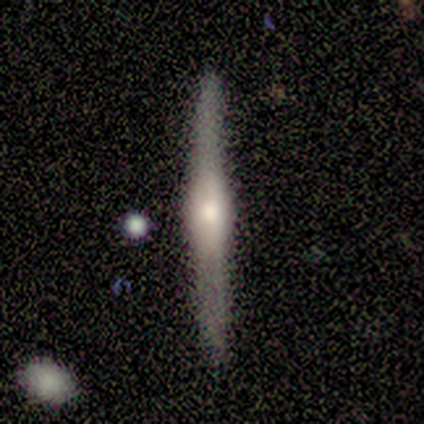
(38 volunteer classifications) Smooth or featured? featured or disk (82%)
Edge-on disk? yes (94%)
Edge-on bulge? rounded (86%)
Merging? none (67%)